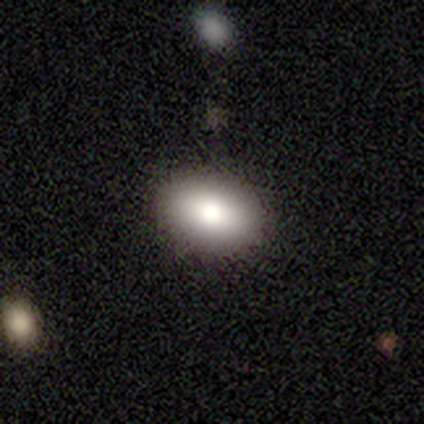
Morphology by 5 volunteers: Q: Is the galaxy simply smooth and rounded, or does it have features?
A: smooth — 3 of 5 (60%).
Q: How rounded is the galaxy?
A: in between — 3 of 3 (100%).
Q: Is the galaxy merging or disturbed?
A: none — 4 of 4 (100%).